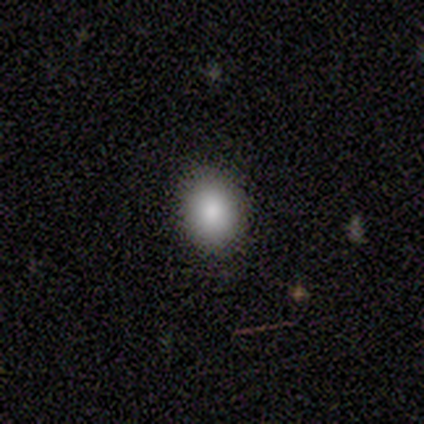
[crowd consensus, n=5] A smooth galaxy with no disk features (80%) that is round (50%, tied with in between). Merging: none (80%).